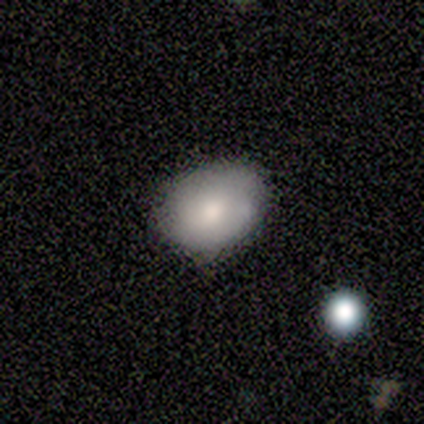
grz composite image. It shows a smooth galaxy with no disk features (83%) that is in between round and cigar-shaped (80%). Merging: none (100%).